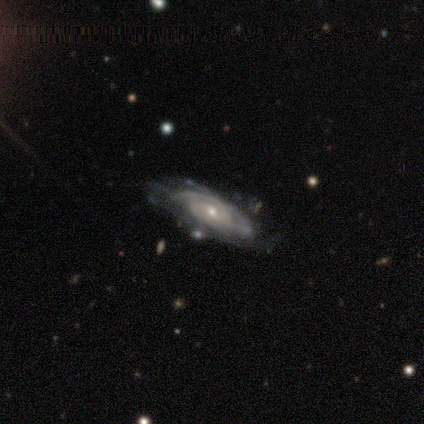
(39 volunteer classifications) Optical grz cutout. It shows a featured or disk galaxy (85%) with no bar (50%), 3 (31%) medium (47%) spiral arms (100%) and a small central bulge (53%). Merging: none (65%).